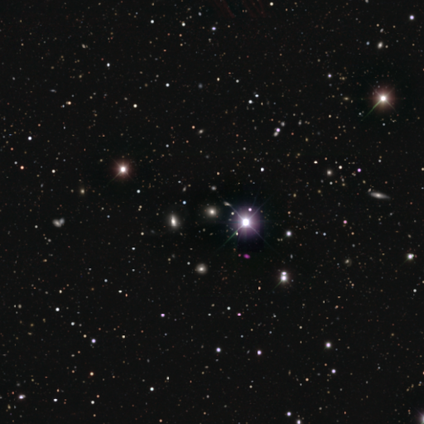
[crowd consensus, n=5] Smooth or featured? star or artifact (100%)